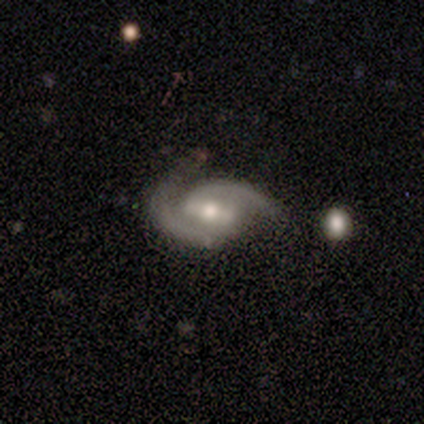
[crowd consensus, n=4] smooth-or-featured: featured or disk: 100% | smooth: 0% | star or artifact: 0%
  disk-edge-on: no: 100% | yes: 0%
    bar: strong: 50% (tied) | weak: 50% (tied) | no: 0%
    has-spiral-arms: yes: 100% | no: 0%
      spiral-winding: tight: 50% (tied) | medium: 50% (tied) | loose: 0%
      spiral-arm-count: 2: 100% | 1: 0% | 3: 0% | 4: 0% | more than 4: 0% | can't tell: 0%
    bulge-size: moderate: 75% | small: 25% | dominant: 0% | large: 0% | none: 0%
  merging: none: 50% (tied) | minor disturbance: 50% (tied) | major disturbance: 0% | merger: 0%